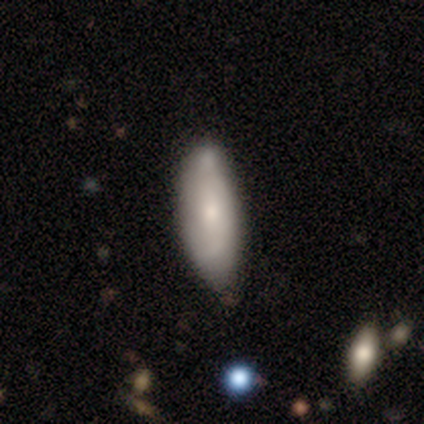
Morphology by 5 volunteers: Smooth or featured?
  - featured or disk: 60% *
  - smooth: 40%
  - star or artifact: 0%
Edge-on disk?
  - no: 100% *
  - yes: 0%
Bar?
  - no: 100% *
  - strong: 0%
  - weak: 0%
Spiral arms?
  - no: 67% *
  - yes: 33%
Bulge size?
  - small: 67% *
  - moderate: 33%
  - dominant: 0%
  - large: 0%
  - none: 0%
Merging?
  - none: 60% *
  - minor disturbance: 40%
  - major disturbance: 0%
  - merger: 0%